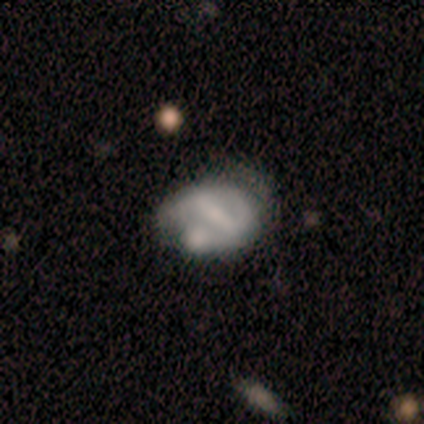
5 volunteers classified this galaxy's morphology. smooth-or-featured: featured or disk: 80% | star or artifact: 20% | smooth: 0%
  disk-edge-on: no: 100% | yes: 0%
    bar: strong: 50% | weak: 25% | no: 25%
    has-spiral-arms: no: 75% | yes: 25%
    bulge-size: small: 50% (tied) | none: 50% (tied) | dominant: 0% | large: 0% | moderate: 0%
  merging: minor disturbance: 50% | none: 25% | major disturbance: 25% | merger: 0%